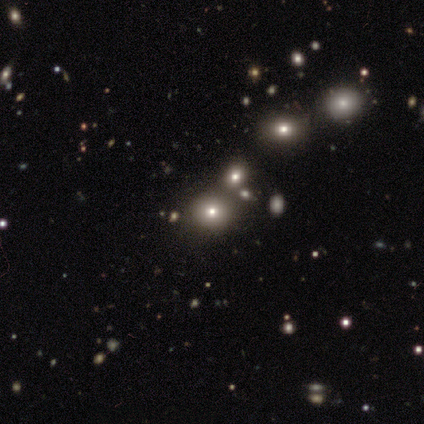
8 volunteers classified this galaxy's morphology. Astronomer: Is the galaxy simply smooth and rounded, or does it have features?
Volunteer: smooth — 50%, tied with star or artifact at 50%.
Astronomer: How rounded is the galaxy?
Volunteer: round — 50%, tied with in between at 50%.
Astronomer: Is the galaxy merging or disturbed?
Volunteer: none — 100%.